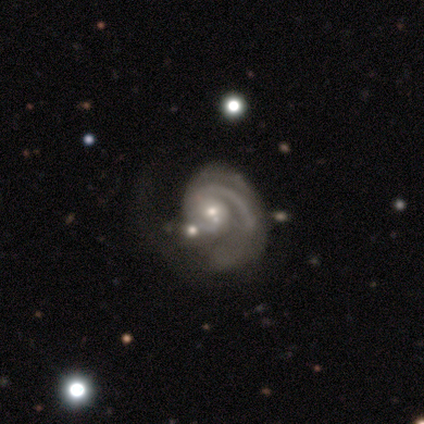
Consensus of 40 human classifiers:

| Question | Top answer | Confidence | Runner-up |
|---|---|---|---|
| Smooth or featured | featured or disk | 92% | smooth (5%) |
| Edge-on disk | no | 97% | yes (3%) |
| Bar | no | 56% | weak (42%) |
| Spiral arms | yes | 100% | — |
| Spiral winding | medium | 47% | tight (44%) |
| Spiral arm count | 1 | 33% | tied: 2 (33%) |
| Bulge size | small | 47% | moderate (44%) |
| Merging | major disturbance | 44% | none (33%) |